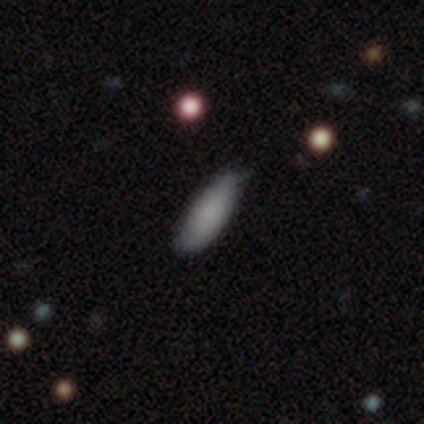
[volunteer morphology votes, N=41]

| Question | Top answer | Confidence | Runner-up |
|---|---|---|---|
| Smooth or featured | smooth | 78% | star or artifact (15%) |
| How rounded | in between | 59% | cigar-shaped (41%) |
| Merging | none | 83% | minor disturbance (14%) |